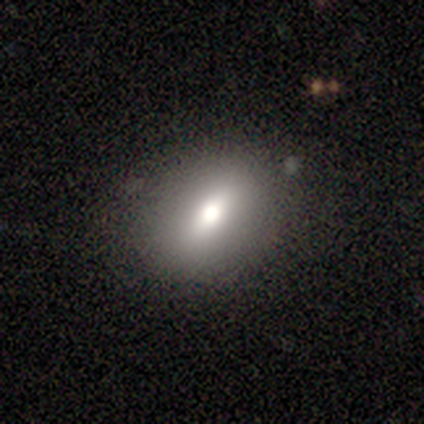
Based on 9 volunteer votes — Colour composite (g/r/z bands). It shows a smooth galaxy with no disk features (67%) that is in between round and cigar-shaped (67%). Merging: none (89%).